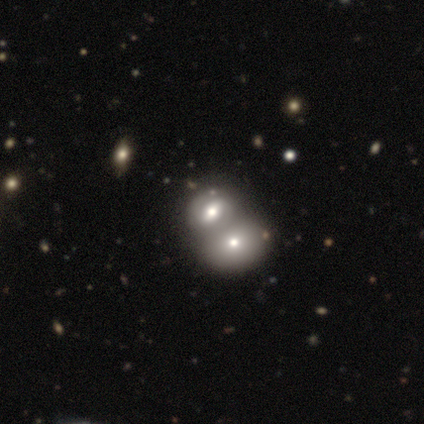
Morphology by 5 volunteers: smooth_or_featured: smooth (p=0.40) [tied with: featured or disk p=0.40]
how_rounded: in between (p=1.00)
merging: merger (p=0.75) [alt: none p=0.25]